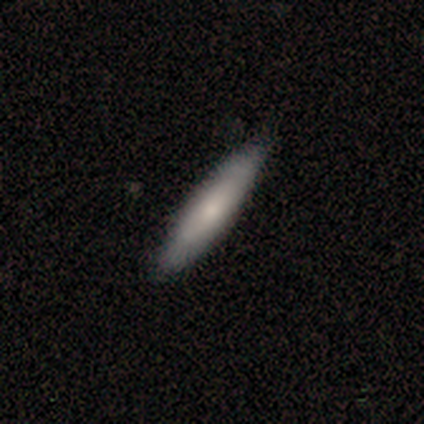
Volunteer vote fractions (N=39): Smooth or featured? 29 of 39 (74%) said smooth. How rounded? 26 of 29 (90%) said cigar-shaped. Merging? 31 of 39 (79%) said none.